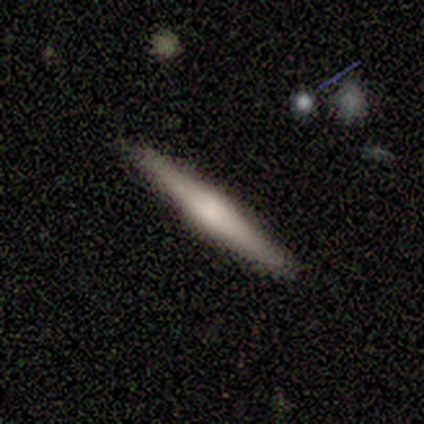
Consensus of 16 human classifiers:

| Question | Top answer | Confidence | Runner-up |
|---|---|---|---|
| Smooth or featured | smooth | 50% | tied: featured or disk (50%) |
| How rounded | cigar-shaped | 100% | — |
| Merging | none | 94% | major disturbance (6%) |